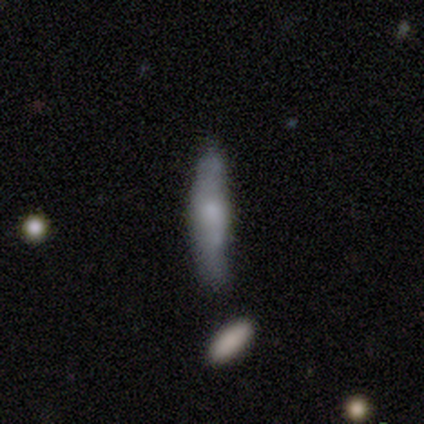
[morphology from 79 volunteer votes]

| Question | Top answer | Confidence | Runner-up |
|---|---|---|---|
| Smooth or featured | smooth | 53% | featured or disk (39%) |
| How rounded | cigar-shaped | 83% | in between (17%) |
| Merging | minor disturbance | 25% | none (23%) |